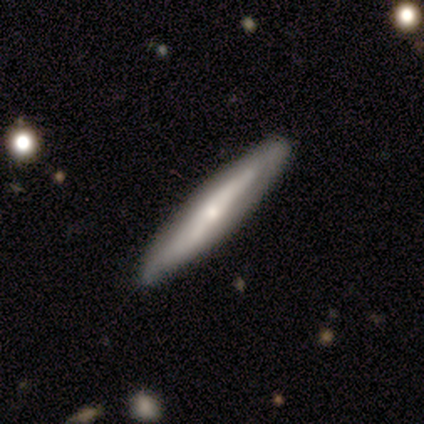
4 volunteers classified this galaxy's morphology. A smooth galaxy with no disk features (50%, tied with featured or disk) that is cigar-shaped (100%).

Vote fractions:
- Smooth or featured? smooth: 50% (tied) / featured or disk: 50% (tied) / star or artifact: 0%
- How rounded? cigar-shaped: 100% / round: 0% / in between: 0%
- Merging? none: 75% / minor disturbance: 25% / major disturbance: 0% / merger: 0%